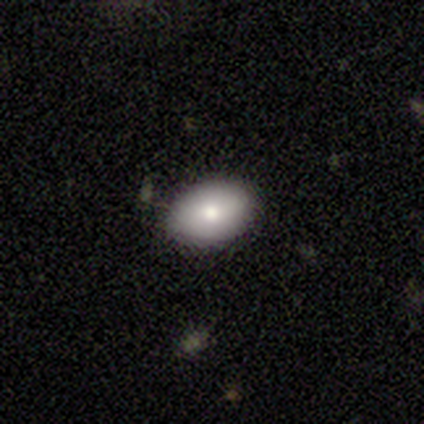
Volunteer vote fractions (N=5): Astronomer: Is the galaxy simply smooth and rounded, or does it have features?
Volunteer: smooth — 80%.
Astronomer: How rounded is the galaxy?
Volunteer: in between — 100%.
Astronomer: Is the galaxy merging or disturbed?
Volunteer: none — 100%.